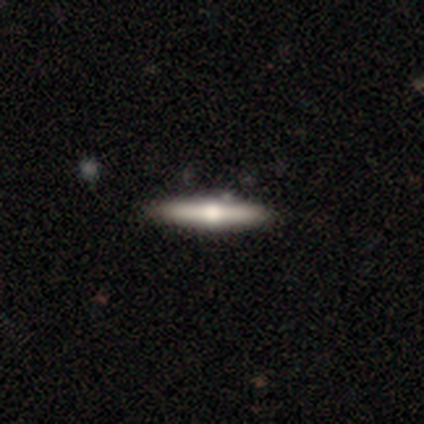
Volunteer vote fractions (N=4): Smooth or featured: smooth — 50% (tied with featured or disk — 50%)
How rounded: cigar-shaped — 100%
Merging: none — 100%